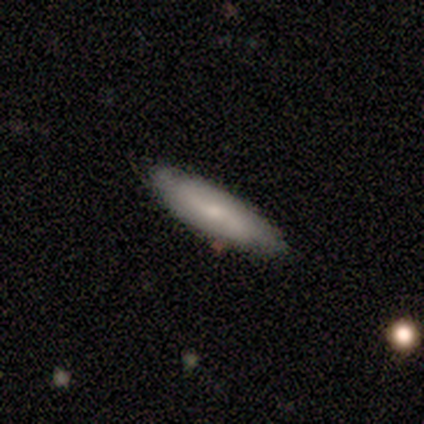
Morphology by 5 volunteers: type=featured or disk (60%); edge-on=no (67%); bar=weak (100%); spiral arms=yes (50%, tied with no); winding=tight (100%); arm count=2 (100%); bulge=moderate (50%, tied with small); merging=none (60%).